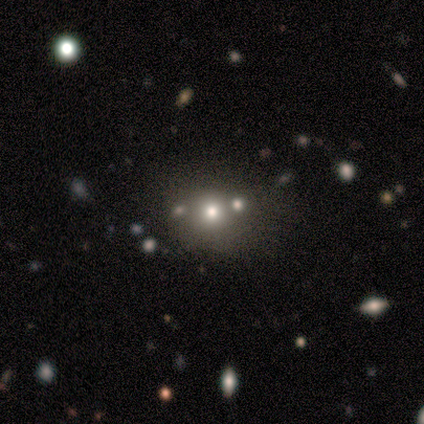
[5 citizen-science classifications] Overall: smooth (100%). How rounded: round (100%). Merging: none (40%, tied with merger).